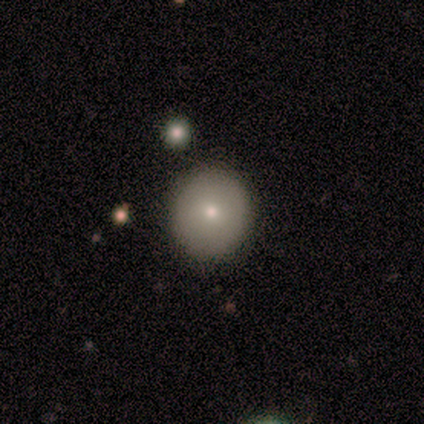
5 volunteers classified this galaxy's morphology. Smooth or featured? smooth (60%)
How rounded? round (67%)
Merging? none (100%)